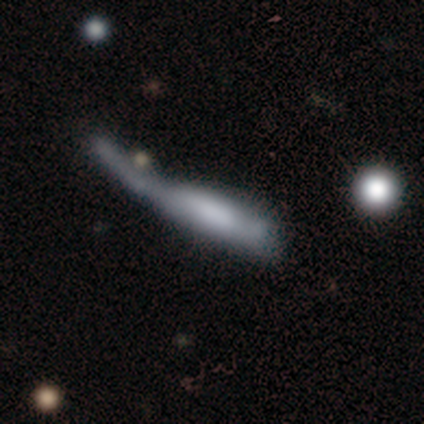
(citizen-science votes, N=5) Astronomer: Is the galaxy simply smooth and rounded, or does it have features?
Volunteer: smooth — 80%.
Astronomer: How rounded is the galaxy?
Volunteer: in between — 50%, tied with cigar-shaped at 50%.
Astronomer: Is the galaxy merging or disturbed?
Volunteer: major disturbance — 80%.